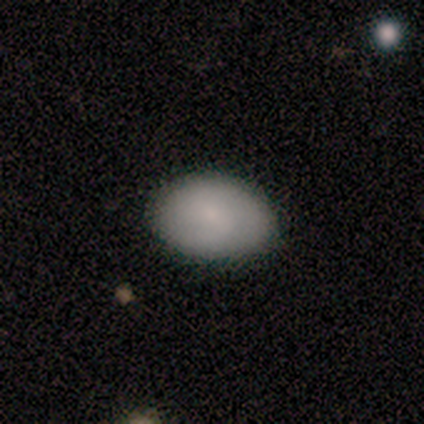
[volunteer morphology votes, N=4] This appears to be a smooth galaxy with no disk features (50%) that is in between round and cigar-shaped (100%). Merging: none (67%).